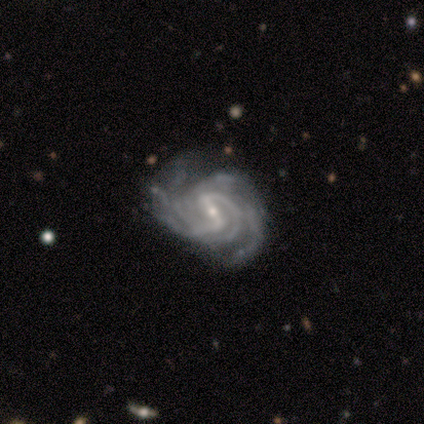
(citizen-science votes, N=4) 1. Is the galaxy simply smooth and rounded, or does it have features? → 100% featured or disk, 0% smooth, 0% star or artifact.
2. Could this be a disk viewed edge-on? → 100% no, 0% yes.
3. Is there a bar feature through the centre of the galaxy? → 50% strong (tied), 50% weak (tied), 0% no.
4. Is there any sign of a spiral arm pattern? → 100% yes, 0% no.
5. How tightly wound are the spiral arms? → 50% tight (tied), 50% medium (tied), 0% loose.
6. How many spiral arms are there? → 50% 2, 25% more than 4, 25% can't tell, 0% 1, 0% 3, 0% 4.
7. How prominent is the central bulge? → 50% moderate (tied), 50% small (tied), 0% dominant, 0% large, 0% none.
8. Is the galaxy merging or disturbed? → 50% none (tied), 50% minor disturbance (tied), 0% major disturbance, 0% merger.